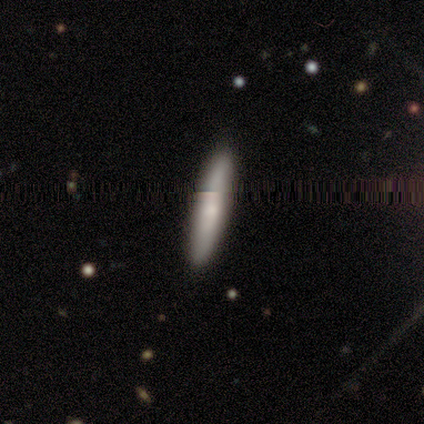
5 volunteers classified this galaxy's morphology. A smooth galaxy with no disk features (60%) that is cigar-shaped (100%).

Vote fractions:
- Smooth or featured? smooth: 60% / featured or disk: 40% / star or artifact: 0%
- How rounded? cigar-shaped: 100% / round: 0% / in between: 0%
- Merging? none: 100% / minor disturbance: 0% / major disturbance: 0% / merger: 0%